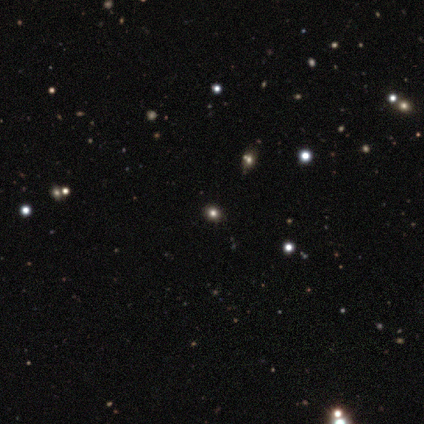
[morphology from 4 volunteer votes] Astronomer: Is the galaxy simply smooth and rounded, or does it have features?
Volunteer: smooth — 75%.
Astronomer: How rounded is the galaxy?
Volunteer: round — 67%.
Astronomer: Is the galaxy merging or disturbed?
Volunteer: none — 100%.